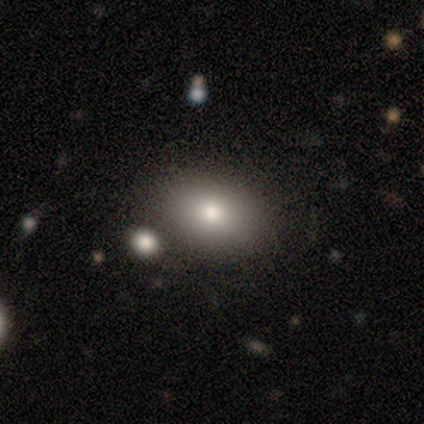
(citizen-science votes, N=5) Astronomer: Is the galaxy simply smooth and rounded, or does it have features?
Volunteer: smooth — 100%.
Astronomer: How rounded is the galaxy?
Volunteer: in between — 80%.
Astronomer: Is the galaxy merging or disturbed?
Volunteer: none — 80%.